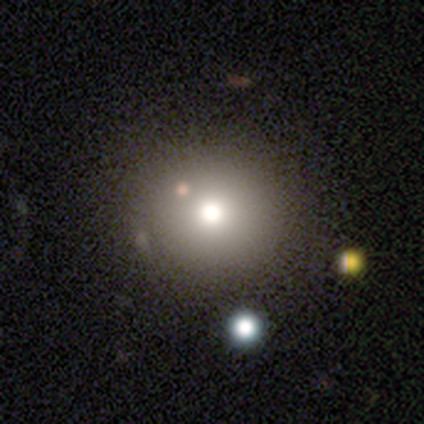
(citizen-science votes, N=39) Overall: smooth (67%). How rounded: round (100%). Merging: none (67%).